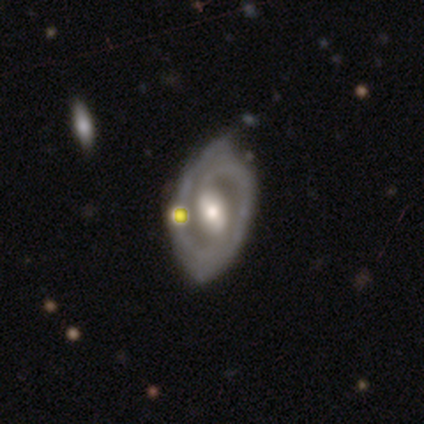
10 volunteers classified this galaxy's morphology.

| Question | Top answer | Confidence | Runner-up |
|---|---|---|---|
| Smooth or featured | featured or disk | 90% | smooth (10%) |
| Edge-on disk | no | 100% | — |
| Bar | weak | 56% | strong (22%) |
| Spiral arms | yes | 100% | — |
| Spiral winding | tight | 56% | medium (33%) |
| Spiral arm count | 2 | 78% | 1 (11%) |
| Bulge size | moderate | 78% | small (22%) |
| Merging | none | 70% | minor disturbance (20%) |